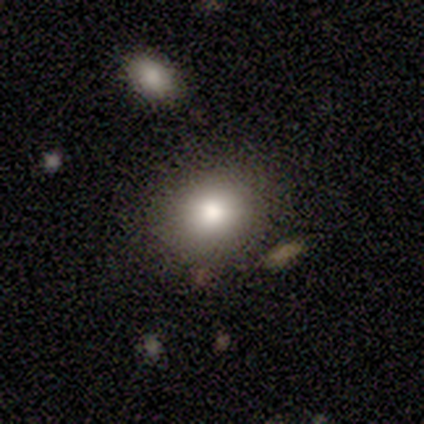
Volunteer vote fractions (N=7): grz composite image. It shows a star or artifact, not a galaxy (57%).